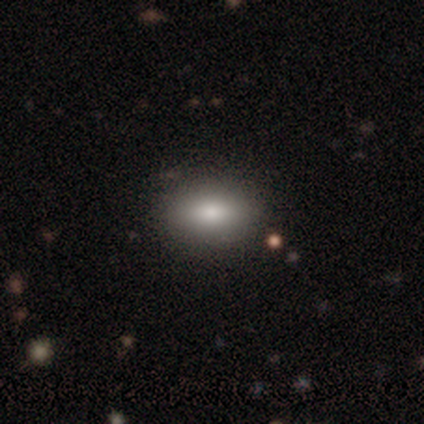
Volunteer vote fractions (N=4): smooth_or_featured: smooth (p=1.00)
how_rounded: in between (p=0.75) [alt: round p=0.25]
merging: none (p=1.00)